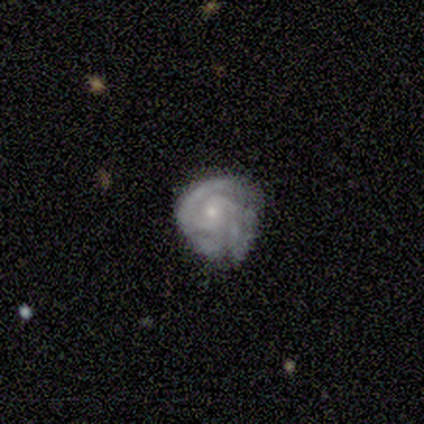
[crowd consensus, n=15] Morphology: type=featured or disk (80%); edge-on=no (100%); bar=no (58%); spiral arms=yes (92%); winding=medium (55%); arm count=2 (36%, tied with 3); bulge=small (92%); merging=none (50%).